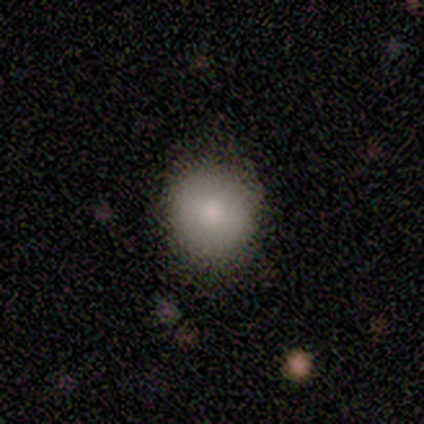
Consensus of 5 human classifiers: smooth-or-featured: smooth: 80% | featured or disk: 20% | star or artifact: 0%
  how-rounded: round: 100% | in between: 0% | cigar-shaped: 0%
  merging: none: 80% | major disturbance: 20% | minor disturbance: 0% | merger: 0%